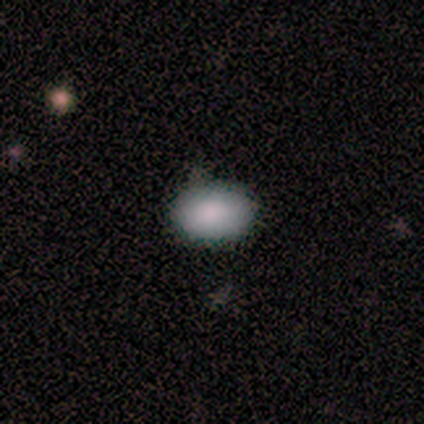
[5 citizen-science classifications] Smooth or featured?
  - smooth: 100% *
  - featured or disk: 0%
  - star or artifact: 0%
How rounded?
  - in between: 100% *
  - round: 0%
  - cigar-shaped: 0%
Merging?
  - none: 80% *
  - minor disturbance: 20%
  - major disturbance: 0%
  - merger: 0%